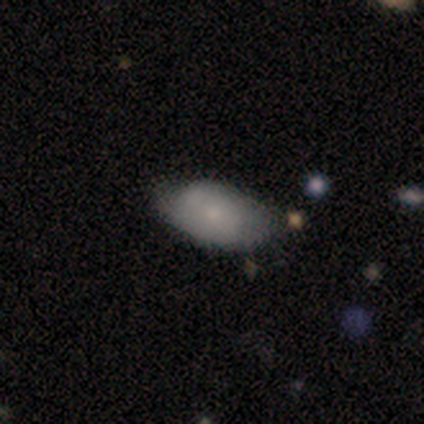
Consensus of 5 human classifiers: smooth-or-featured: smooth: 60% | featured or disk: 40% | star or artifact: 0%
  how-rounded: in between: 100% | round: 0% | cigar-shaped: 0%
  merging: none: 60% | minor disturbance: 40% | major disturbance: 0% | merger: 0%